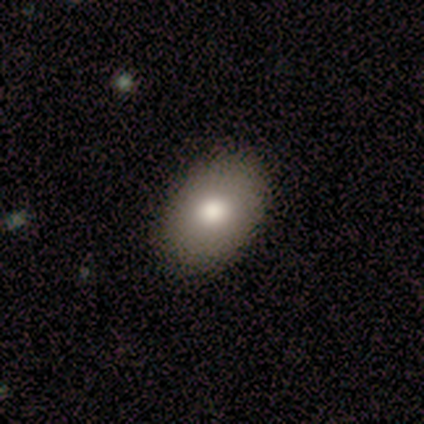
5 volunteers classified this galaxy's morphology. Overall: smooth (60%; featured or disk 40%). How rounded: in between (100%). Merging: none (80%).